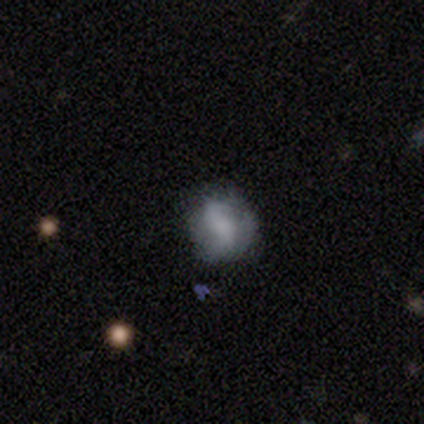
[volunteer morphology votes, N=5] A featured or disk galaxy (60%) with a weak bar (67%), 2 (67%) loose (67%) spiral arms (100%) and a small central bulge (67%).

Vote fractions:
- Smooth or featured? featured or disk: 60% / smooth: 40% / star or artifact: 0%
- Edge-on disk? no: 100% / yes: 0%
- Bar? weak: 67% / strong: 33% / no: 0%
- Spiral arms? yes: 100% / no: 0%
- Spiral winding? loose: 67% / tight: 33% / medium: 0%
- Spiral arm count? 2: 67% / 1: 33% / 3: 0% / 4: 0% / more than 4: 0% / can't tell: 0%
- Bulge size? small: 67% / none: 33% / dominant: 0% / large: 0% / moderate: 0%
- Merging? none: 80% / minor disturbance: 20% / major disturbance: 0% / merger: 0%